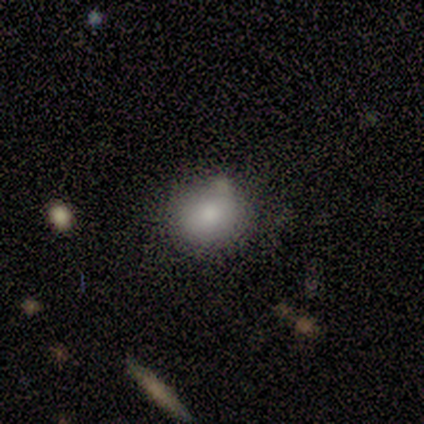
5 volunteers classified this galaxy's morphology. Overall: smooth (80%). How rounded: round (50%, tied with in between). Merging: none (50%; minor disturbance 25%).